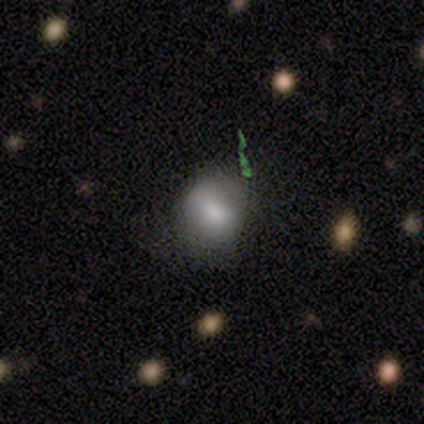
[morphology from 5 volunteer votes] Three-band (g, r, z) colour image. It shows a smooth galaxy with no disk features (60%) that is round (67%). Merging: none (80%).